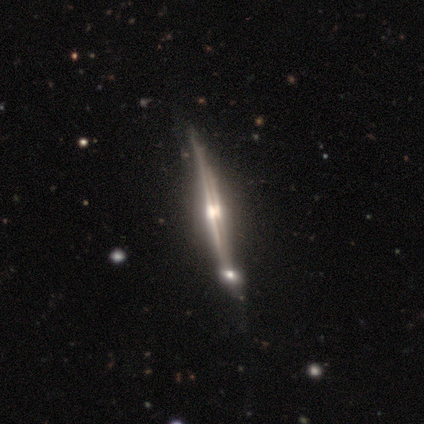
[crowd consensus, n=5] Smooth or featured? 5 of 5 (100%) said featured or disk. Edge-on disk? 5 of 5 (100%) said yes. Edge-on bulge? 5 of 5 (100%) said rounded. Merging? 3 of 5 (60%) said none.